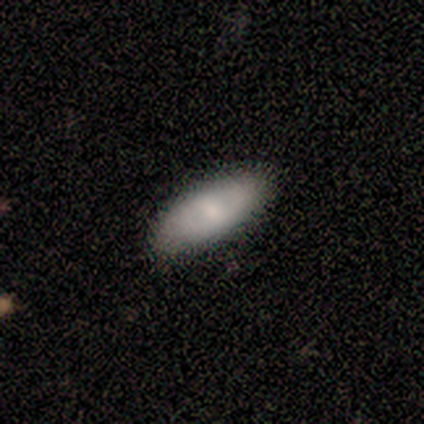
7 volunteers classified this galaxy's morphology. Volunteers were most divided on "smooth or featured": smooth: 86%, featured or disk: 14%, star or artifact: 0%. More confident: how rounded — in between (100%); merging — none (100%).